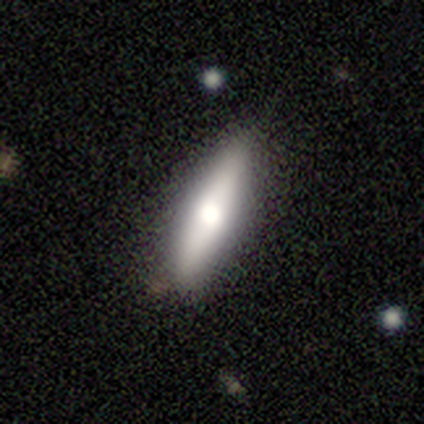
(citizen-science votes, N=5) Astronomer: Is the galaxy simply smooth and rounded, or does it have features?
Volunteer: featured or disk — 60% (runner-up: smooth, 40%).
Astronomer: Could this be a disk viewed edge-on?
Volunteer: yes — 100%.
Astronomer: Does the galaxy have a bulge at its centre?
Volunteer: rounded — 100%.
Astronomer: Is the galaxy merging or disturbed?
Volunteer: none — 80%.